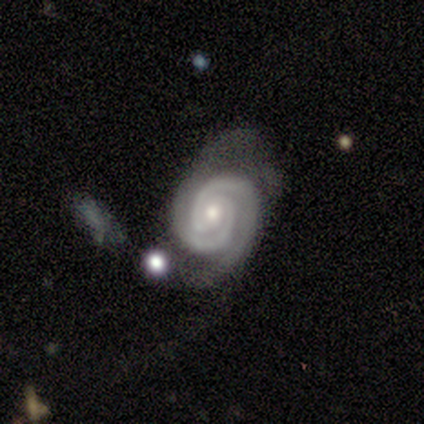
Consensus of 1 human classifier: Q: Smooth or featured?
A: featured or disk (100%)
Q: Edge-on disk?
A: no (100%)
Q: Bar?
A: no (100%)
Q: Spiral arms?
A: yes (100%)
Q: Spiral winding?
A: medium (100%)
Q: Spiral arm count?
A: 2 (100%)
Q: Bulge size?
A: moderate (100%)
Q: Merging?
A: minor disturbance (100%)